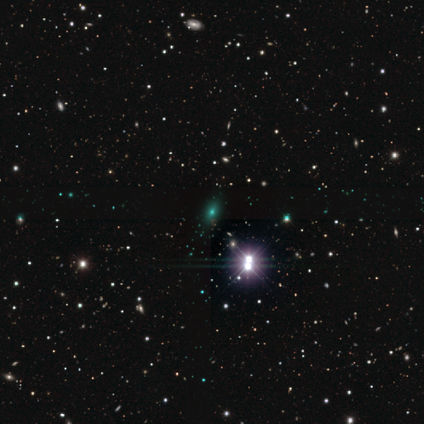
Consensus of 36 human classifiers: Smooth or featured?
  - star or artifact: 69% *
  - smooth: 19%
  - featured or disk: 11%